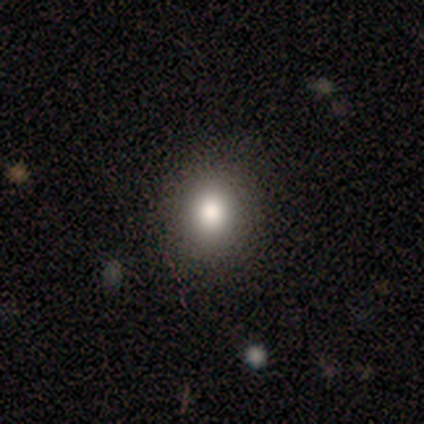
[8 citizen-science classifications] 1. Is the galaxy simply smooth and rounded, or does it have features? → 75% smooth, 12% featured or disk, 12% star or artifact.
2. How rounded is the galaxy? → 67% in between, 33% round, 0% cigar-shaped.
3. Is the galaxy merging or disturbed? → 86% none, 14% minor disturbance, 0% major disturbance, 0% merger.